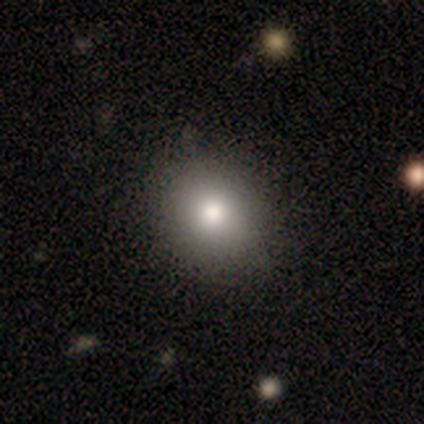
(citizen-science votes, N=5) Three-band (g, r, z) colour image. It shows a smooth galaxy with no disk features (100%) that is round (100%). Merging: none (100%).